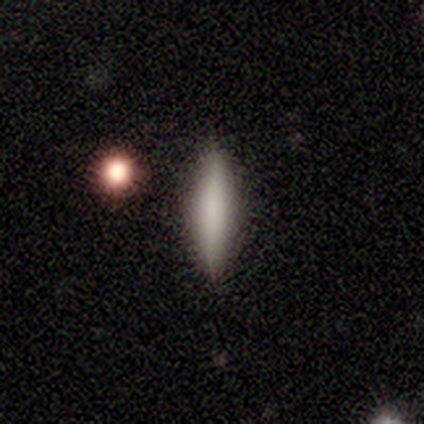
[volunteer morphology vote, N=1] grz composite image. It shows a smooth galaxy with no disk features (100%) that is in between round and cigar-shaped (100%). Merging: none (100%).